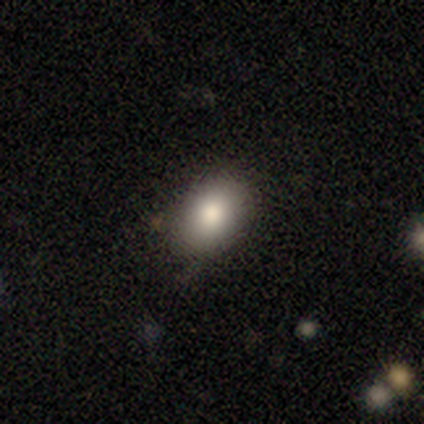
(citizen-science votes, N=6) Smooth or featured? 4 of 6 (67%) said smooth. How rounded? 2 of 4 (50%, tied with in between) said round. Merging? 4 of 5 (80%) said none.